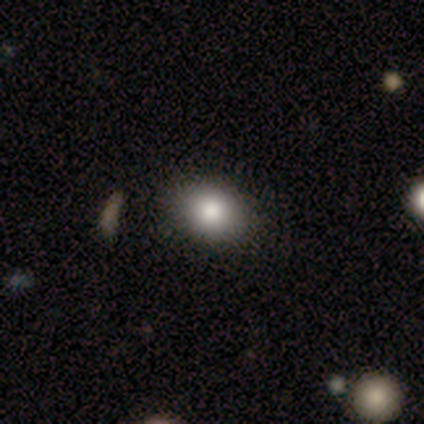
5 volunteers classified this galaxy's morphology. smooth_or_featured: smooth (p=0.60) [alt: star or artifact p=0.40]
how_rounded: in between (p=0.67) [alt: round p=0.33]
merging: none (p=1.00)